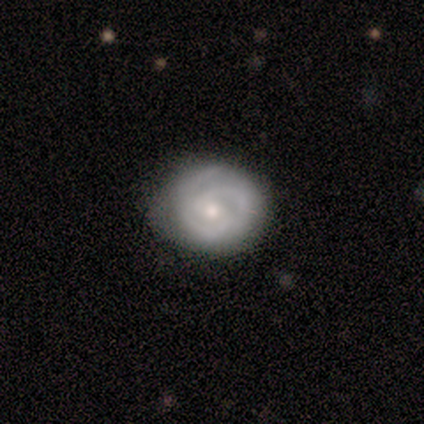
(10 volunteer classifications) A featured or disk galaxy (80%) with no bar (62%), 2 (62%) tight (75%) spiral arms (100%) and a small central bulge (62%).

Vote fractions:
- Smooth or featured? featured or disk: 80% / smooth: 20% / star or artifact: 0%
- Edge-on disk? no: 100% / yes: 0%
- Bar? no: 62% / weak: 38% / strong: 0%
- Spiral arms? yes: 100% / no: 0%
- Spiral winding? tight: 75% / medium: 25% / loose: 0%
- Spiral arm count? 2: 62% / can't tell: 25% / 3: 12% / 1: 0% / 4: 0% / more than 4: 0%
- Bulge size? small: 62% / moderate: 38% / dominant: 0% / large: 0% / none: 0%
- Merging? none: 70% / minor disturbance: 30% / major disturbance: 0% / merger: 0%